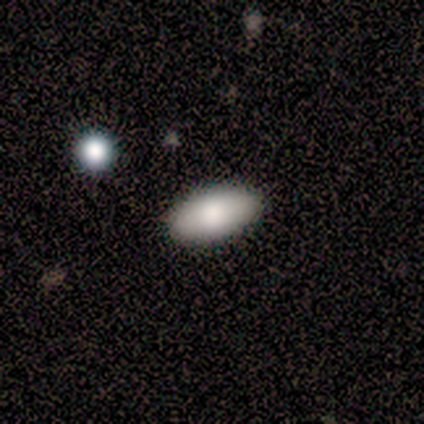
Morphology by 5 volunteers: Smooth or featured?
  - featured or disk: 60% *
  - smooth: 40%
  - star or artifact: 0%
Edge-on disk?
  - no: 100% *
  - yes: 0%
Bar?
  - no: 100% *
  - strong: 0%
  - weak: 0%
Spiral arms?
  - no: 100% *
  - yes: 0%
Bulge size?
  - moderate: 67% *
  - large: 33%
  - dominant: 0%
  - small: 0%
  - none: 0%
Merging?
  - none: 80% *
  - minor disturbance: 20%
  - major disturbance: 0%
  - merger: 0%